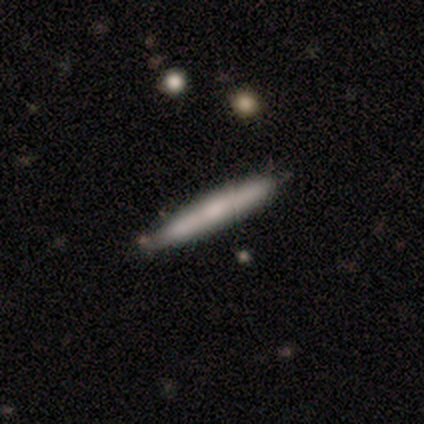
smooth 71%, featured or disk 29%, star or artifact 0%. Down the decision tree: how rounded — cigar-shaped (100%); merging — none (71%).